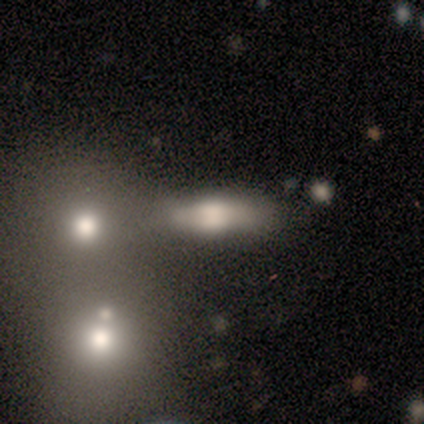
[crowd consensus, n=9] Smooth or featured? smooth (78%)
How rounded? in between (57%)
Merging? minor disturbance (50%)